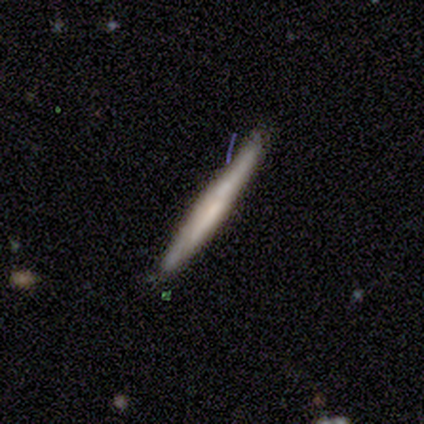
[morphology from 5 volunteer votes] Smooth or featured? featured or disk (60%)
Edge-on disk? yes (100%)
Edge-on bulge? none (67%)
Merging? none (60%)